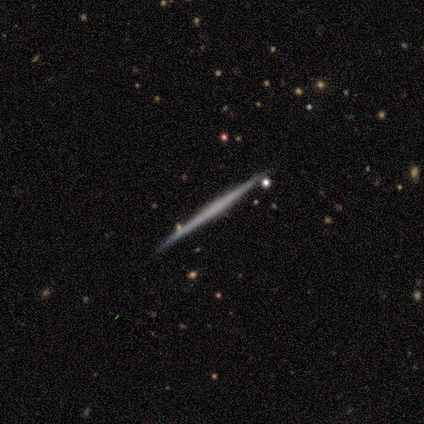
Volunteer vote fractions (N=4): smooth_or_featured: featured or disk (p=0.50) [alt: smooth p=0.25]
disk_edge_on: yes (p=1.00)
edge_on_bulge: boxy (p=0.50) [tied with: none p=0.50]
merging: none (p=1.00)